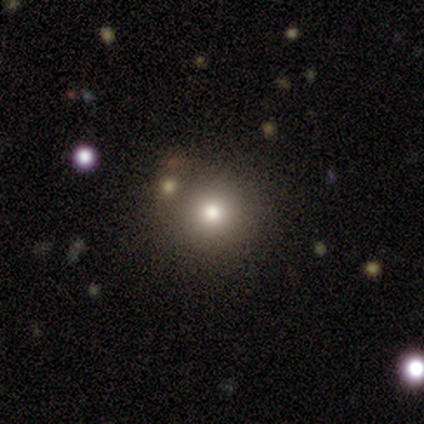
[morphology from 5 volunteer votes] Smooth or featured? 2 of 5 (40%, tied with featured or disk) said smooth. How rounded? 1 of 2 (50%, tied with in between) said round. Merging? 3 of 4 (75%) said none.